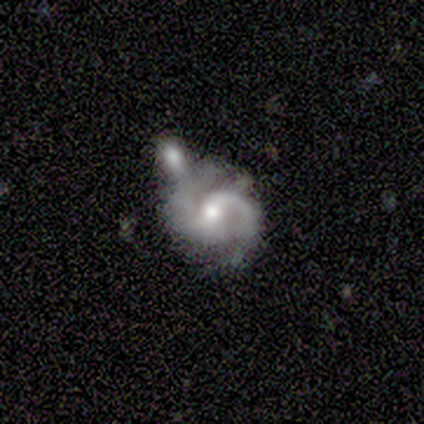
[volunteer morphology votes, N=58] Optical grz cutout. It shows a featured or disk galaxy (95%) with a weak bar (56%), 2 (82%) medium (64%) spiral arms (100%) and a moderate central bulge (64%). Merging: merger (47%).